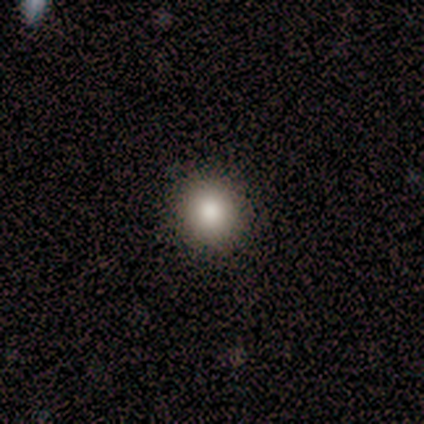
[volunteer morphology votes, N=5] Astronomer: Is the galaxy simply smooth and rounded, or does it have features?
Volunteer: smooth — 100%.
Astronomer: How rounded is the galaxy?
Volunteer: round — 100%.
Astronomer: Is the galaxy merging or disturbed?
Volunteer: none — 100%.